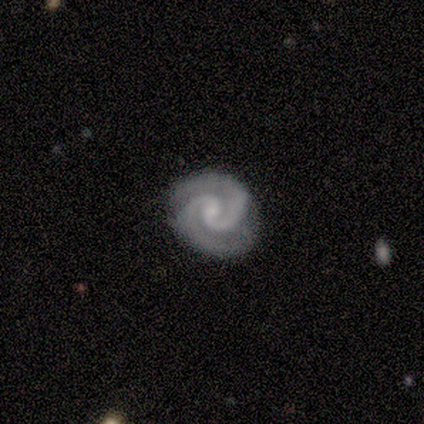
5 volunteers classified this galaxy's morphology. Overall: featured or disk (100%). Edge-on disk: no (100%). Bar: no (60%; weak 40%). Spiral arms: yes (100%). Spiral arm count: 2 (100%). Spiral winding: tight (100%). Bulge size: small (40%, tied with none). Merging: none (100%).